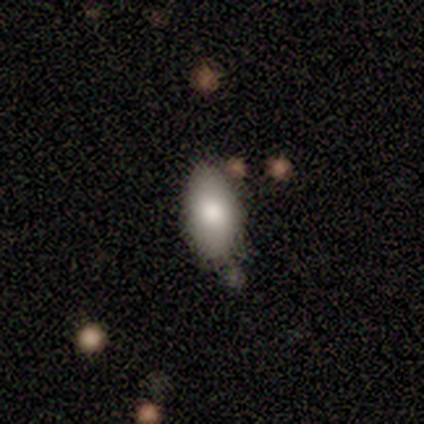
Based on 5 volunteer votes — Q: Smooth or featured?
A: featured or disk (60%); runner-up: smooth (40%)
Q: Edge-on disk?
A: no (67%); runner-up: yes (33%)
Q: Bar?
A: no (100%)
Q: Spiral arms?
A: no (100%)
Q: Bulge size?
A: large (50%); tied with: moderate (50%)
Q: Merging?
A: none (100%)